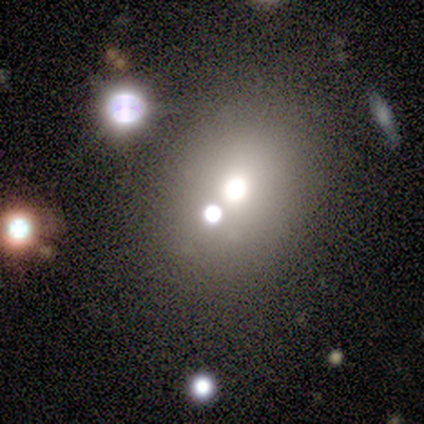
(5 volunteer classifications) Q: Smooth or featured?
A: smooth (60%); runner-up: featured or disk (20%)
Q: How rounded?
A: round (67%); runner-up: in between (33%)
Q: Merging?
A: none (75%); runner-up: merger (25%)